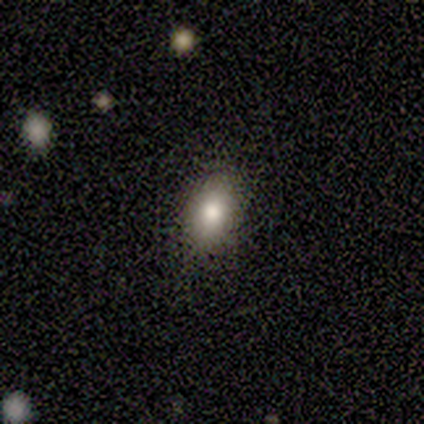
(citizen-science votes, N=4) Smooth or featured?
  - smooth: 100% *
  - featured or disk: 0%
  - star or artifact: 0%
How rounded?
  - in between: 50% *
  - round: 25%
  - cigar-shaped: 25%
Merging?
  - none: 100% *
  - minor disturbance: 0%
  - major disturbance: 0%
  - merger: 0%